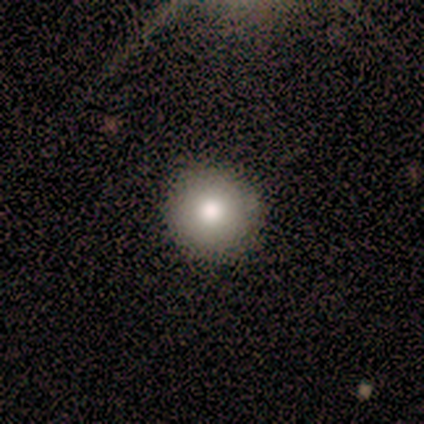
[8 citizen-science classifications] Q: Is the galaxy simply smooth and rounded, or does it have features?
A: smooth — 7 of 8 (88%).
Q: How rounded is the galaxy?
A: round — 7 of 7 (100%).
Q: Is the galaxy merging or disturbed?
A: none — 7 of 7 (100%).